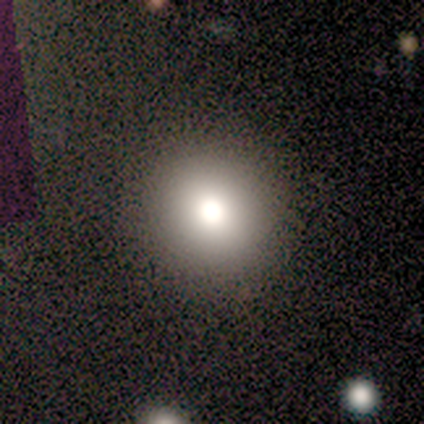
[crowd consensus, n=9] Q: Smooth or featured?
A: smooth (67%); runner-up: star or artifact (22%)
Q: How rounded?
A: round (83%); runner-up: in between (17%)
Q: Merging?
A: none (100%)